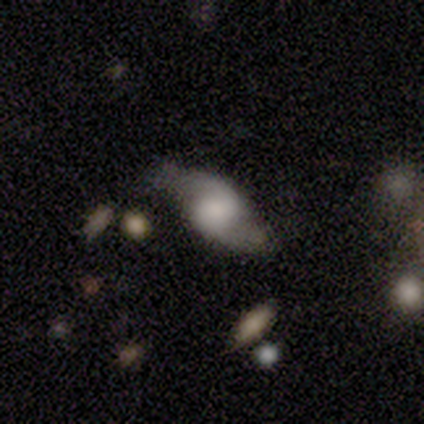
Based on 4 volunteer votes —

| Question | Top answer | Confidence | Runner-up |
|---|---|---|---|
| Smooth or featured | featured or disk | 75% | star or artifact (25%) |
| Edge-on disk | no | 100% | — |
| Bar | no | 100% | — |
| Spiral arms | yes | 67% | no (33%) |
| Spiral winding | tight | 50% | tied: medium (50%) |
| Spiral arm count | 2 | 100% | — |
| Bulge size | none | 67% | large (33%) |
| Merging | none | 100% | — |